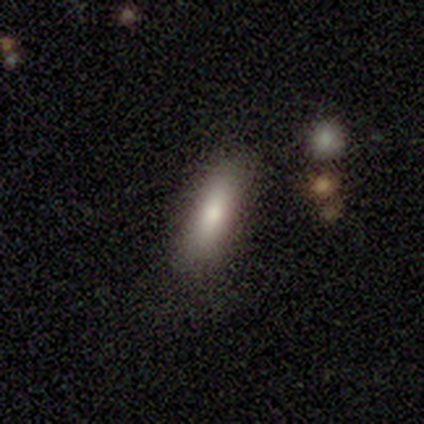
Smooth or featured: smooth — 75% (star or artifact — 25%)
How rounded: in between — 100%
Merging: none — 67% (major disturbance — 33%)